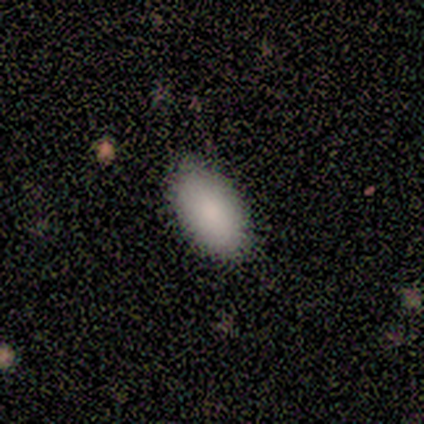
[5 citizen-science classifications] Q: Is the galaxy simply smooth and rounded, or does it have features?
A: smooth — 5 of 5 (100%).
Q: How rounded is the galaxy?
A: in between — 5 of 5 (100%).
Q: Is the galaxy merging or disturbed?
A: none — 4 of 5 (80%).